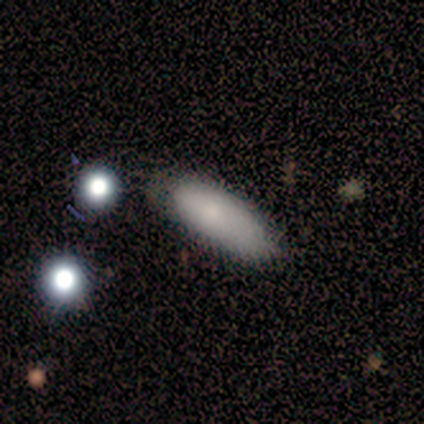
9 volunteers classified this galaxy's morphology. A smooth galaxy with no disk features (56%) that is in between round and cigar-shaped (60%). Merging: none (62%).